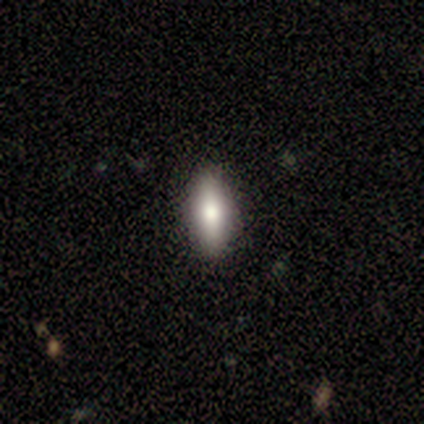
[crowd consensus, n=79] Smooth or featured: smooth — 81% (featured or disk — 15%)
How rounded: in between — 80% (cigar-shaped — 20%)
Merging: none — 49% (minor disturbance — 3%)